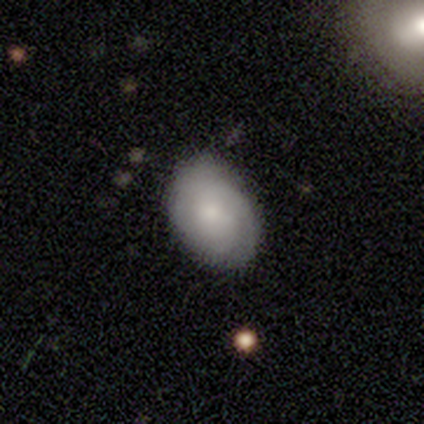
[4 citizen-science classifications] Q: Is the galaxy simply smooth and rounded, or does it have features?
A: smooth — 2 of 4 (50%).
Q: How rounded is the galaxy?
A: round — 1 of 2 (50%, tied with in between).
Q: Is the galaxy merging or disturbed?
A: none — 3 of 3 (100%).